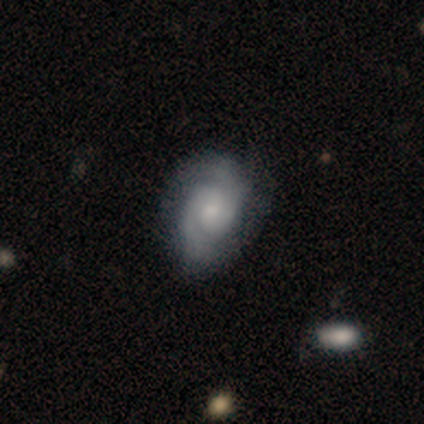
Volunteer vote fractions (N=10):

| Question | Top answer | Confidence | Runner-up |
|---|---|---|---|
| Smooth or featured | featured or disk | 90% | star or artifact (10%) |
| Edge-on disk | no | 89% | yes (11%) |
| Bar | no | 75% | weak (25%) |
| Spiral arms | yes | 100% | — |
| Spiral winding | tight | 50% | medium (38%) |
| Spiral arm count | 2 | 100% | — |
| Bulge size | small | 62% | moderate (25%) |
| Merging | none | 56% | minor disturbance (33%) |